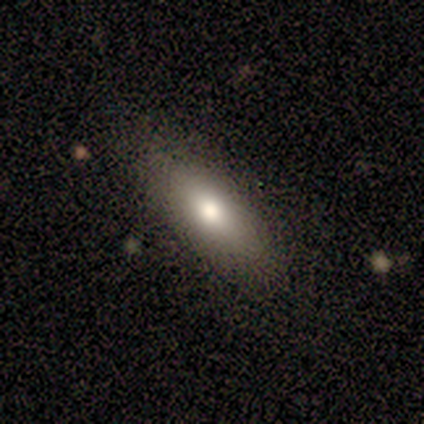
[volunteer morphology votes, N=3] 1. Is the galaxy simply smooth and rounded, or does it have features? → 67% smooth, 33% featured or disk, 0% star or artifact.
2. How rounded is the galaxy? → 100% cigar-shaped, 0% round, 0% in between.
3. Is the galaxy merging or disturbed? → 100% none, 0% minor disturbance, 0% major disturbance, 0% merger.